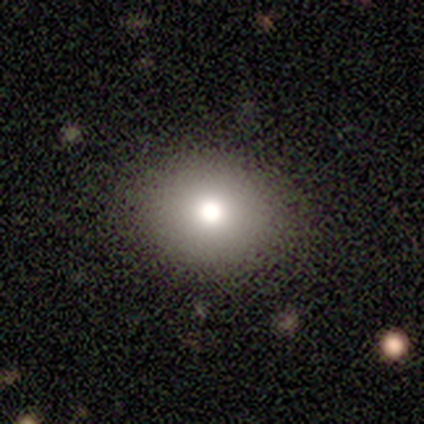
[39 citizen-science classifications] A smooth galaxy with no disk features (74%) that is in between round and cigar-shaped (55%).

Vote fractions:
- Smooth or featured? smooth: 74% / star or artifact: 18% / featured or disk: 8%
- How rounded? in between: 55% / round: 45% / cigar-shaped: 0%
- Merging? none: 97% / major disturbance: 3% / minor disturbance: 0% / merger: 0%